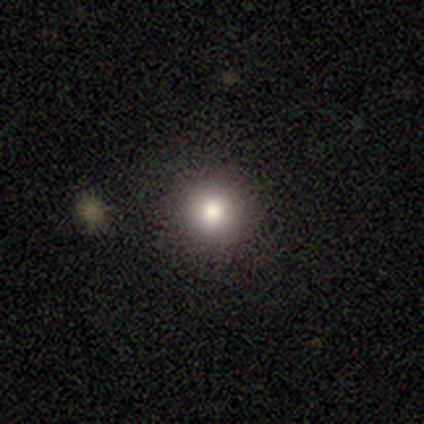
A smooth galaxy with no disk features (60%) that is round (100%). Merging: none (100%).